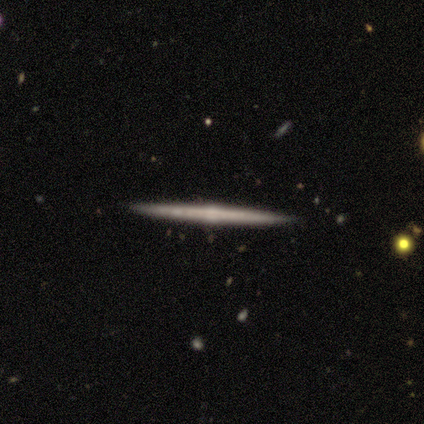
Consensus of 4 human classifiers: This appears to be a featured or disk galaxy (75%) viewed edge-on (100%) with a rounded central bulge (100%). Merging: none (100%).